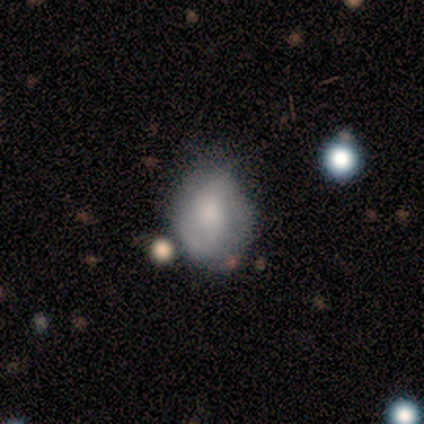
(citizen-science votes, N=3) A featured or disk galaxy (67%) with no bar (100%), 2 (50%, tied with can't tell) tight (50%, tied with loose) spiral arms (100%) and a moderate central bulge (50%, tied with none).

Vote fractions:
- Smooth or featured? featured or disk: 67% / smooth: 33% / star or artifact: 0%
- Edge-on disk? no: 100% / yes: 0%
- Bar? no: 100% / strong: 0% / weak: 0%
- Spiral arms? yes: 100% / no: 0%
- Spiral winding? tight: 50% (tied) / loose: 50% (tied) / medium: 0%
- Spiral arm count? 2: 50% (tied) / can't tell: 50% (tied) / 1: 0% / 3: 0% / 4: 0% / more than 4: 0%
- Bulge size? moderate: 50% (tied) / none: 50% (tied) / dominant: 0% / large: 0% / small: 0%
- Merging? none: 67% / minor disturbance: 33% / major disturbance: 0% / merger: 0%